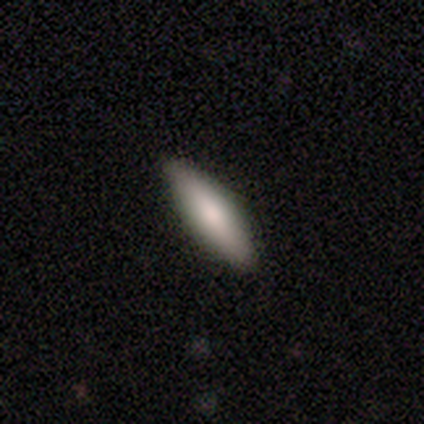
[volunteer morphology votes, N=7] Volunteers were most divided on "how rounded": cigar-shaped: 86%, in between: 14%, round: 0%. More confident: smooth or featured — smooth (100%); merging — none (100%).